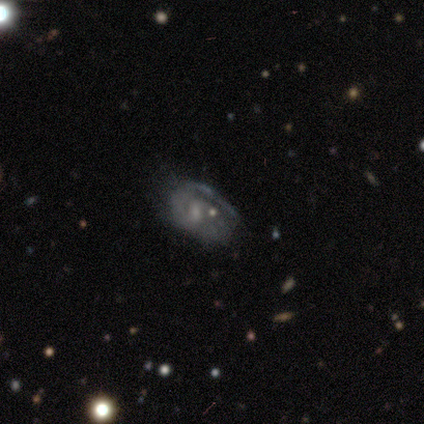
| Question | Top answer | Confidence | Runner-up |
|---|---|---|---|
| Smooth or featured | featured or disk | 67% | smooth (19%) |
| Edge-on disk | no | 100% | — |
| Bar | no | 62% | weak (38%) |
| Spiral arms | yes | 66% | no (34%) |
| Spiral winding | tight | 42% | medium (37%) |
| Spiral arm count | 1 | 42% | can't tell (32%) |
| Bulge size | small | 34% | tied: none (34%) |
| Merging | none | 57% | minor disturbance (19%) |